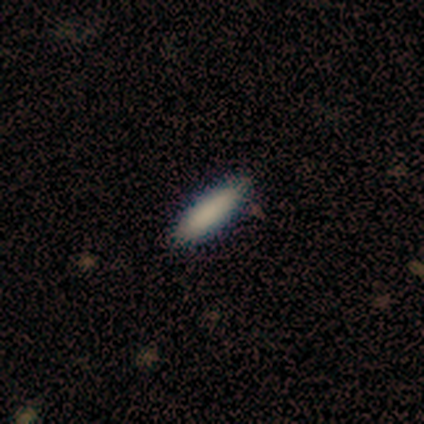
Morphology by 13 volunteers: Smooth or featured?
  - smooth: 92% *
  - star or artifact: 8%
  - featured or disk: 0%
How rounded?
  - cigar-shaped: 67% *
  - in between: 33%
  - round: 0%
Merging?
  - none: 83% *
  - minor disturbance: 17%
  - major disturbance: 0%
  - merger: 0%